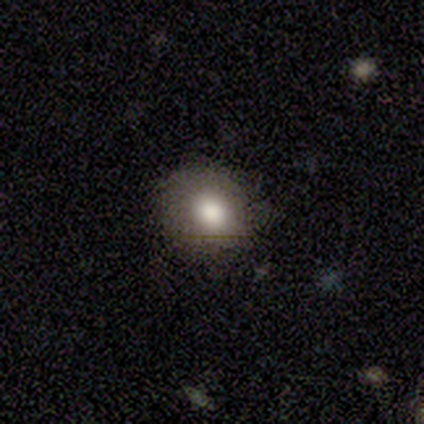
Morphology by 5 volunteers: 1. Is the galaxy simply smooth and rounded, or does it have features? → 80% smooth, 20% featured or disk, 0% star or artifact.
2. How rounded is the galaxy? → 50% round (tied), 50% in between (tied), 0% cigar-shaped.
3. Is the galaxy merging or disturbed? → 80% none, 20% minor disturbance, 0% major disturbance, 0% merger.